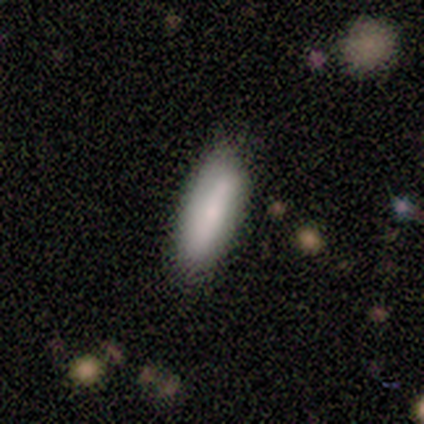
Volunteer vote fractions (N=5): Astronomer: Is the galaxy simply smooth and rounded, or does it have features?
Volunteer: smooth — 80%.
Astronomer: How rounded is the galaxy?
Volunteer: cigar-shaped — 100%.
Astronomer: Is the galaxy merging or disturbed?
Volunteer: none — 100%.